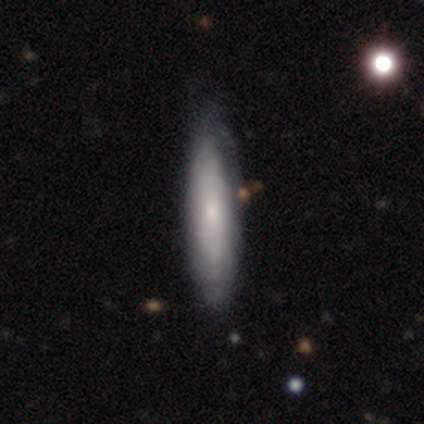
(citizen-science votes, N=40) Smooth or featured? smooth (57%)
How rounded? cigar-shaped (65%)
Merging? none (51%)